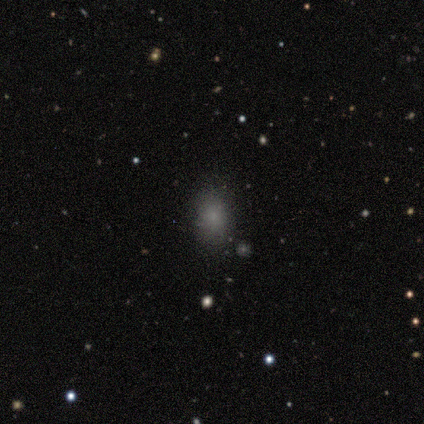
smooth 80%, star or artifact 20%, featured or disk 0%. Down the decision tree: how rounded — in between (62%); merging — none (100%).